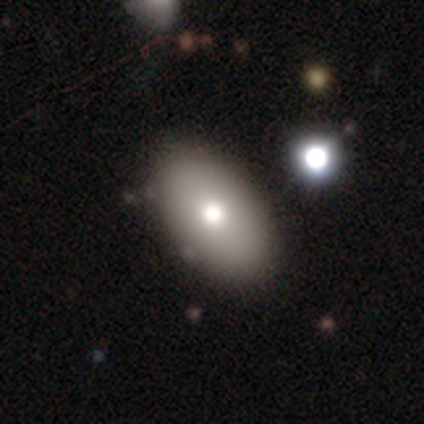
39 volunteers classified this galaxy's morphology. Smooth or featured?
  - smooth: 82% *
  - featured or disk: 15%
  - star or artifact: 3%
How rounded?
  - in between: 97% *
  - round: 3%
  - cigar-shaped: 0%
Merging?
  - none: 66% *
  - minor disturbance: 11%
  - merger: 3%
  - major disturbance: 0%